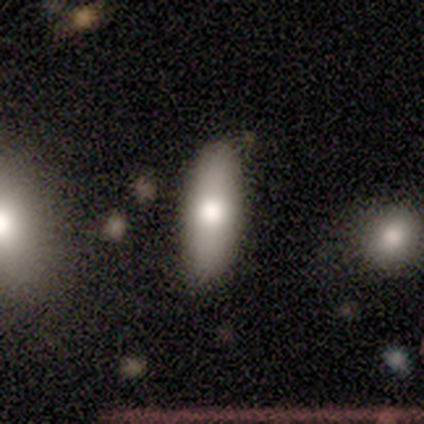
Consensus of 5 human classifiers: smooth-or-featured: smooth: 60% | featured or disk: 40% | star or artifact: 0%
  how-rounded: cigar-shaped: 67% | in between: 33% | round: 0%
  merging: none: 60% | minor disturbance: 20% | merger: 20% | major disturbance: 0%